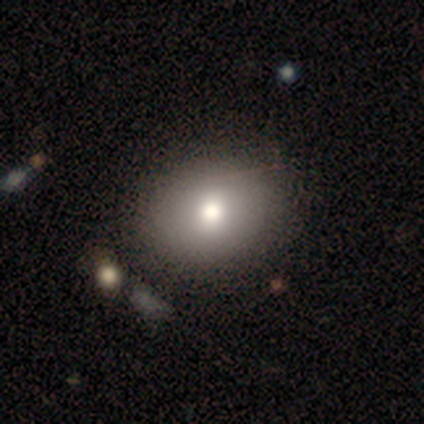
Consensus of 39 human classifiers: Volunteers were most divided on "how rounded": in between: 58%, round: 42%, cigar-shaped: 0%. More confident: smooth or featured — smooth (79%); merging — none (67%).